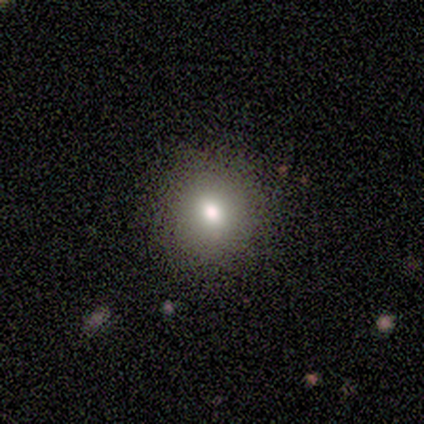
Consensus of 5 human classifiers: Smooth or featured: smooth — 60% (featured or disk — 20%)
How rounded: round — 100%
Merging: none — 75% (merger — 25%)